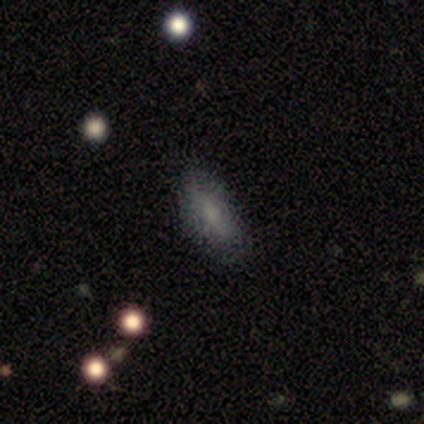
Overall: smooth (100%). How rounded: in between (100%). Merging: none (100%).